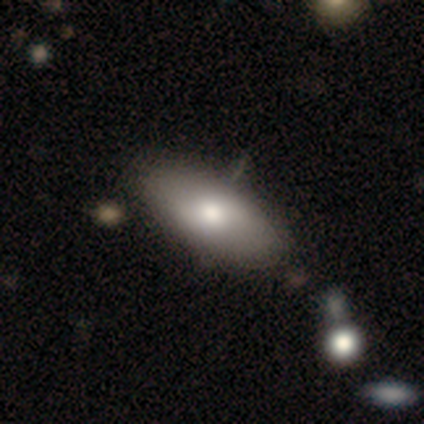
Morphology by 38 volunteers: A smooth galaxy with no disk features (76%) that is in between round and cigar-shaped (90%). Merging: none (51%).